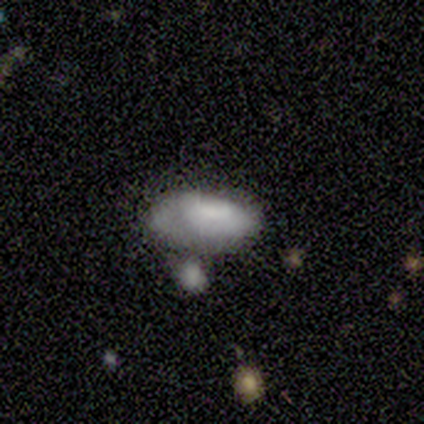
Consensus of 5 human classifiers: A smooth galaxy with no disk features (60%) that is in between round and cigar-shaped (100%).

Vote fractions:
- Smooth or featured? smooth: 60% / star or artifact: 40% / featured or disk: 0%
- How rounded? in between: 100% / round: 0% / cigar-shaped: 0%
- Merging? minor disturbance: 67% / none: 33% / major disturbance: 0% / merger: 0%